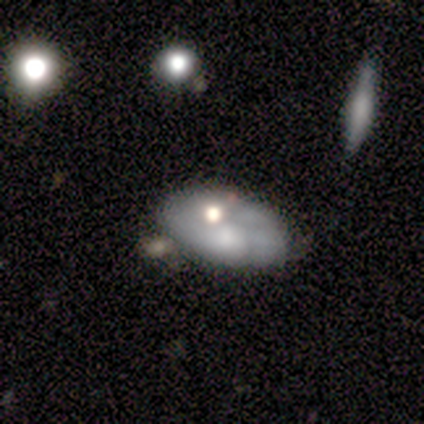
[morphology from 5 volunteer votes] Smooth or featured: smooth — 60% (featured or disk — 20%)
How rounded: in between — 100%
Merging: none — 75% (merger — 25%)